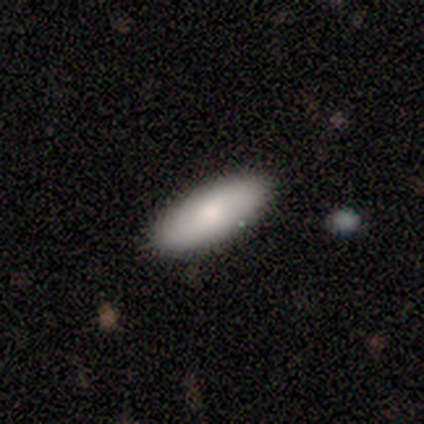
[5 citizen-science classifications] This is clearly a smooth galaxy (80%). How rounded: possibly in between (50%, tied with cigar-shaped). Merging: clearly none (80%).